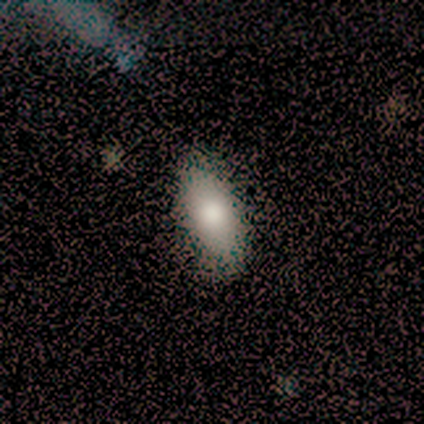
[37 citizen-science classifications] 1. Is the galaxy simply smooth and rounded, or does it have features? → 73% smooth, 22% featured or disk, 5% star or artifact.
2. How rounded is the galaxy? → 81% in between, 15% cigar-shaped, 4% round.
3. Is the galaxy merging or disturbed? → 69% none, 3% minor disturbance, 3% major disturbance, 0% merger.